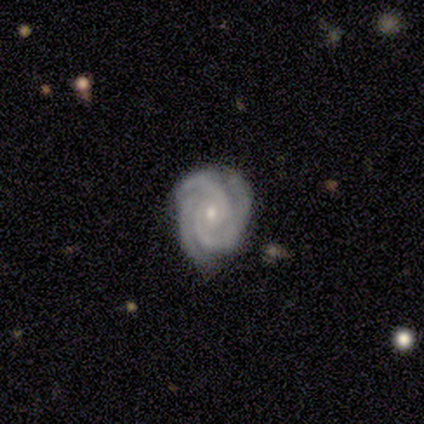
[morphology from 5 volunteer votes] smooth_or_featured: featured or disk (p=0.80) [alt: star or artifact p=0.20]
disk_edge_on: no (p=1.00)
bar: no (p=0.75) [alt: weak p=0.25]
has_spiral_arms: yes (p=1.00)
spiral_winding: tight (p=1.00)
spiral_arm_count: 2 (p=0.50) [tied with: 3 p=0.50]
bulge_size: small (p=0.75) [alt: moderate p=0.25]
merging: none (p=1.00)